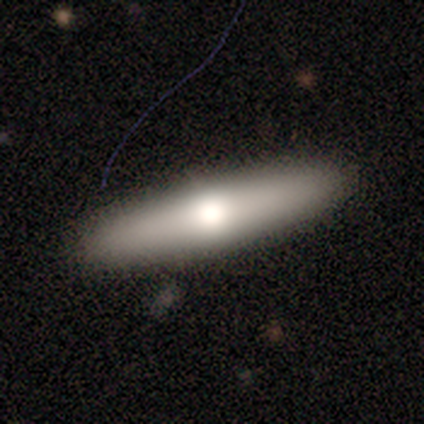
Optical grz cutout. It shows a smooth galaxy with no disk features (50%) that is cigar-shaped (60%). Merging: none (100%).